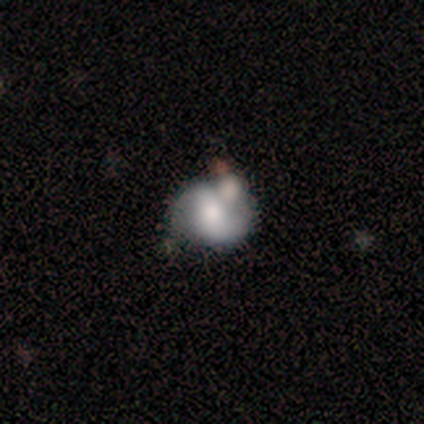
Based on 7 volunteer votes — Morphology: type=featured or disk (57%); edge-on=no (100%); bar=weak (75%); spiral arms=yes (75%); winding=medium (67%); arm count=2 (100%); bulge=moderate (75%); merging=none (43%, tied with merger).